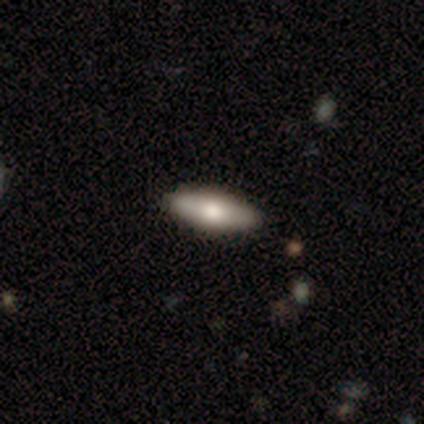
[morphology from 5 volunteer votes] smooth 80%, featured or disk 20%, star or artifact 0%. Down the decision tree: how rounded — in between (75%); merging — none (100%).